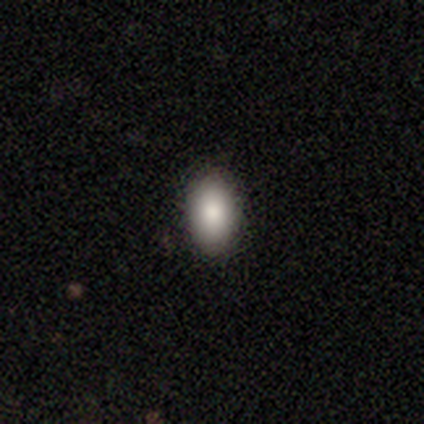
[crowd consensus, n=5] Smooth or featured?
  - smooth: 80% *
  - featured or disk: 20%
  - star or artifact: 0%
How rounded?
  - in between: 100% *
  - round: 0%
  - cigar-shaped: 0%
Merging?
  - none: 100% *
  - minor disturbance: 0%
  - major disturbance: 0%
  - merger: 0%